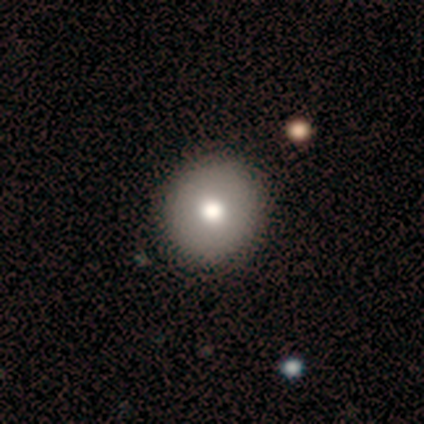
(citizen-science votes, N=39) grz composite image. It shows a smooth galaxy with no disk features (90%) that is round (86%). Merging: none (65%).